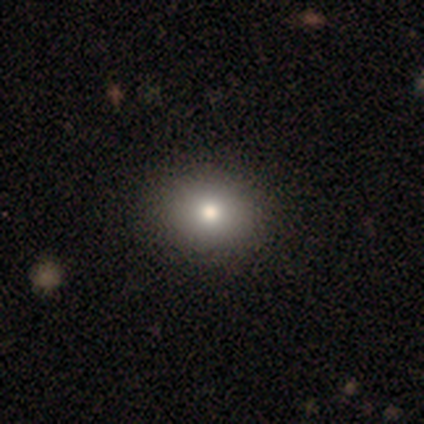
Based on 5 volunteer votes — Morphology: type=smooth (60%); roundness=round (67%); merging=none (100%).